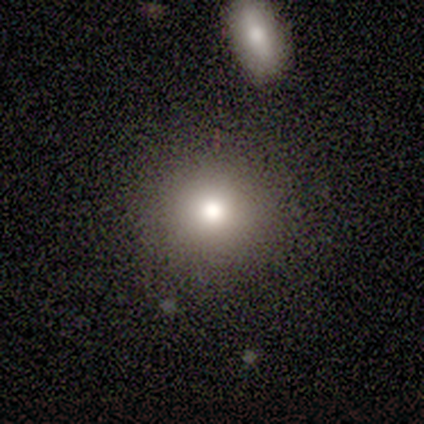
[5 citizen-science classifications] A smooth galaxy with no disk features (80%) that is round (100%).

Vote fractions:
- Smooth or featured? smooth: 80% / featured or disk: 20% / star or artifact: 0%
- How rounded? round: 100% / in between: 0% / cigar-shaped: 0%
- Merging? none: 100% / minor disturbance: 0% / major disturbance: 0% / merger: 0%